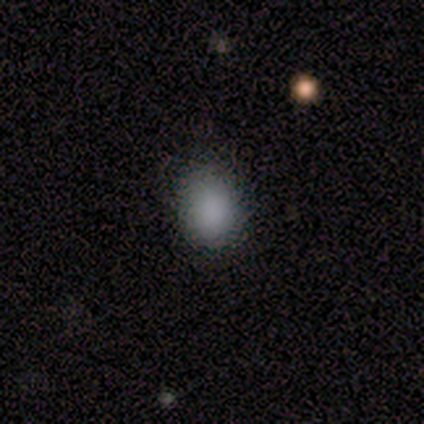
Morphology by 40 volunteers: smooth 85%, star or artifact 10%, featured or disk 5%. Down the decision tree: how rounded — in between (65%); merging — none (86%).